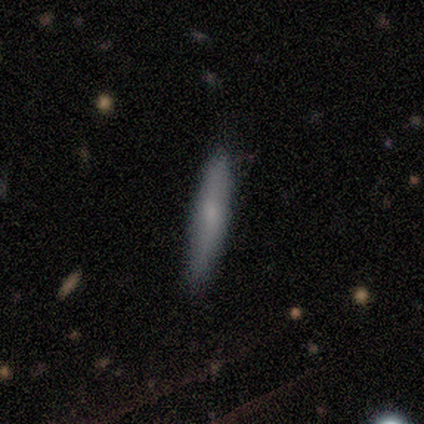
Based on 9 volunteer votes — Morphology: type=smooth (89%); roundness=cigar-shaped (100%); merging=none (89%).